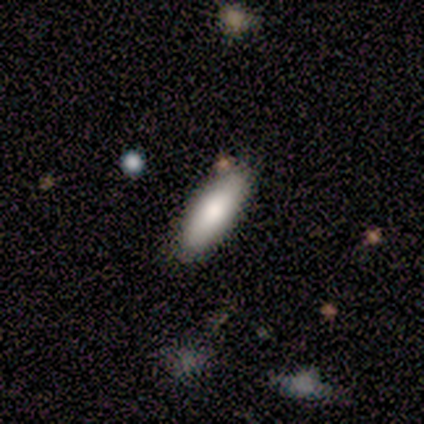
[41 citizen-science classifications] This appears to be a smooth galaxy with no disk features (76%) that is in between round and cigar-shaped (58%). Merging: none (77%).